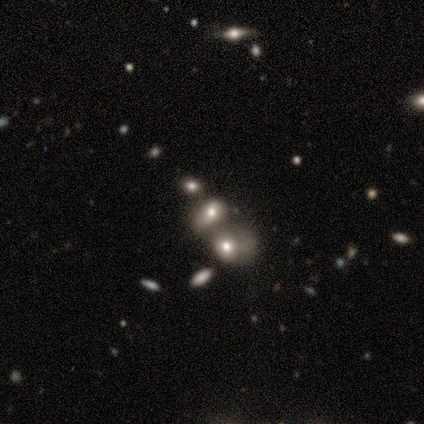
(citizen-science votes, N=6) This is likely a smooth galaxy (67%). How rounded: likely in between (75%). Merging: marginally none (40%, tied with major disturbance).